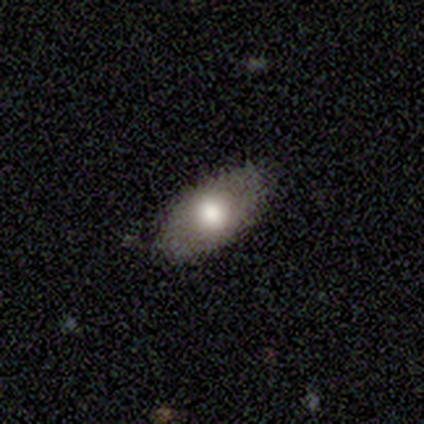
smooth-or-featured: smooth: 73% | featured or disk: 24% | star or artifact: 3%
  how-rounded: in between: 100% | round: 0% | cigar-shaped: 0%
  merging: none: 83% | minor disturbance: 17% | major disturbance: 0% | merger: 0%